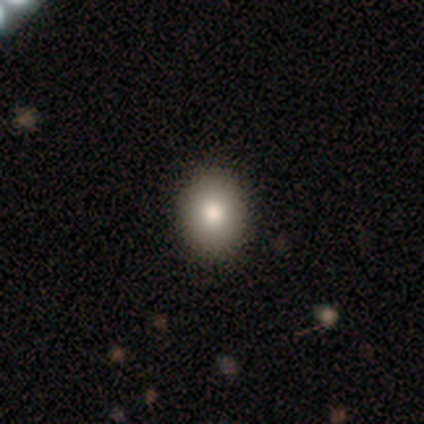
Smooth or featured? smooth (100%)
How rounded? round (100%)
Merging? none (100%)